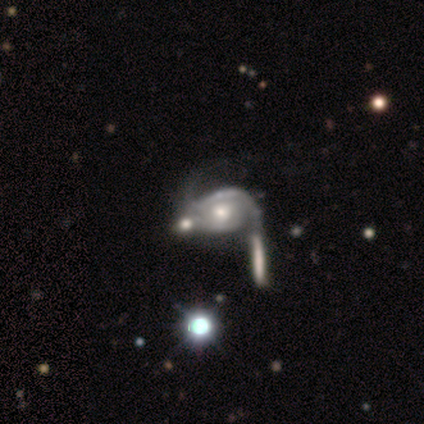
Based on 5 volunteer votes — This is likely a featured or disk galaxy (60%). It is clearly not viewed edge-on (100%). Bar: likely no (67%). Spiral arm pattern: likely yes (67%). Spiral arm count: possibly 1 (50%, tied with 2). Spiral winding: possibly medium (50%, tied with loose). Central bulge: clearly small (100%). Merging: likely merger (60%).